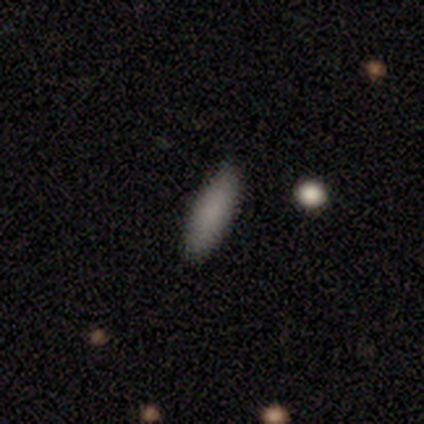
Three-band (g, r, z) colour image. It shows a smooth galaxy with no disk features (83%) that is in between round and cigar-shaped (50%, tied with cigar-shaped). Merging: none (89%).